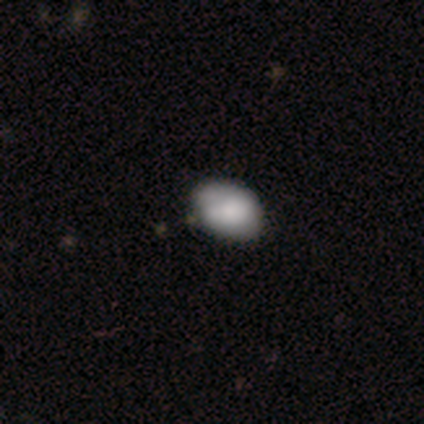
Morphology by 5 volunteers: Smooth or featured?
  - smooth: 100% *
  - featured or disk: 0%
  - star or artifact: 0%
How rounded?
  - in between: 80% *
  - round: 20%
  - cigar-shaped: 0%
Merging?
  - minor disturbance: 80% *
  - none: 20%
  - major disturbance: 0%
  - merger: 0%